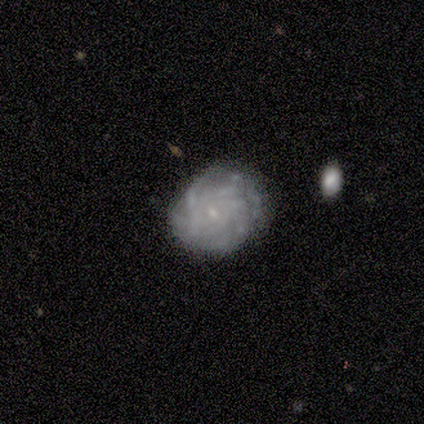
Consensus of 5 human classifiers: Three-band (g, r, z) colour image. It shows a featured or disk galaxy (100%) with no bar (100%), 4 (50%, tied with more than 4) tight (50%, tied with medium) spiral arms (80%) and a small central bulge (100%). Merging: none (80%).